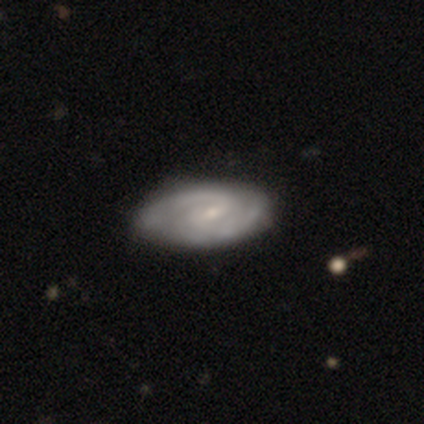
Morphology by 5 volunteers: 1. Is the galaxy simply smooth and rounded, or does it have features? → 80% featured or disk, 20% smooth, 0% star or artifact.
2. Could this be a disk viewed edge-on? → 100% no, 0% yes.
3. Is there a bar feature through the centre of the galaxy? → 75% weak, 25% no, 0% strong.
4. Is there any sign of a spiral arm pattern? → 100% yes, 0% no.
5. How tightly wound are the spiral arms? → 75% medium, 25% tight, 0% loose.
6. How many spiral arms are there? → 100% 2, 0% 1, 0% 3, 0% 4, 0% more than 4, 0% can't tell.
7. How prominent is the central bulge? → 75% small, 25% moderate, 0% dominant, 0% large, 0% none.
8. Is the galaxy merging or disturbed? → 60% none, 40% minor disturbance, 0% major disturbance, 0% merger.